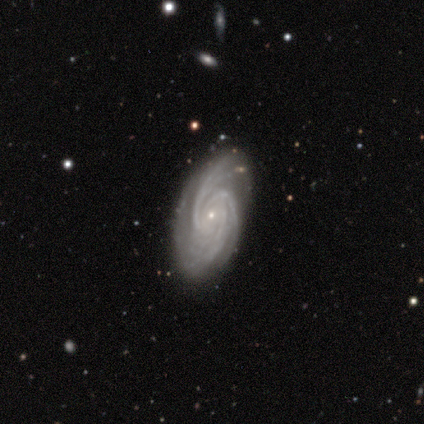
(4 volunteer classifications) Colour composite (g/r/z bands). It shows a featured or disk galaxy (100%) with no bar (75%), 2 (25%, tied with 3, 4 and can't tell) tight (50%, tied with medium) spiral arms (100%) and a small central bulge (100%). Merging: none (100%).